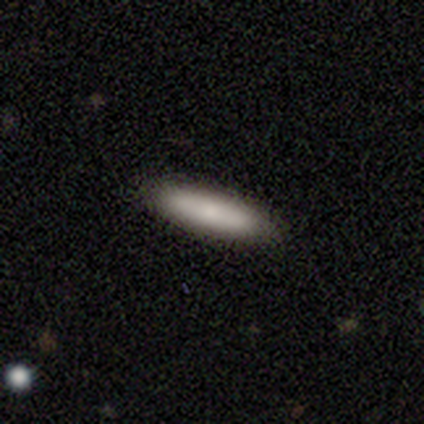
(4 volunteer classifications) A smooth galaxy with no disk features (75%) that is cigar-shaped (100%). Merging: none (100%).